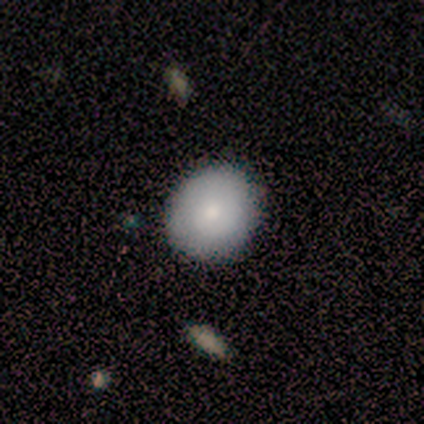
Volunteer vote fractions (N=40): smooth_or_featured: smooth (p=0.78) [alt: featured or disk p=0.20]
how_rounded: round (p=0.74) [alt: in between p=0.26]
merging: none (p=0.67) [alt: minor disturbance p=0.03]